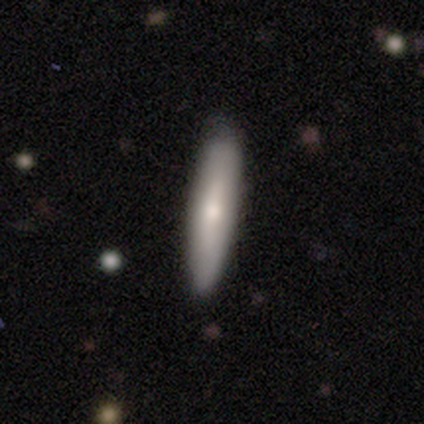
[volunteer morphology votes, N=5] This appears to be a smooth galaxy with no disk features (100%) that is cigar-shaped (60%). Merging: none (80%).